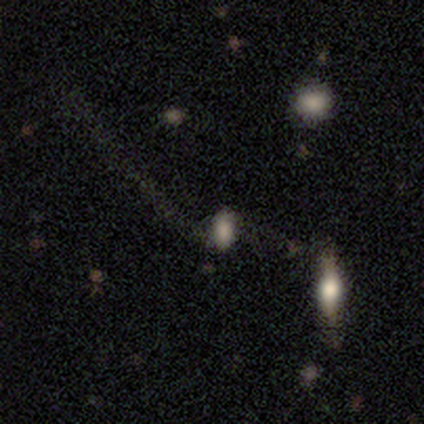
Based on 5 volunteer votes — A smooth galaxy with no disk features (60%) that is in between round and cigar-shaped (67%).

Vote fractions:
- Smooth or featured? smooth: 60% / featured or disk: 20% / star or artifact: 20%
- How rounded? in between: 67% / round: 33% / cigar-shaped: 0%
- Merging? major disturbance: 50% / none: 25% / merger: 25% / minor disturbance: 0%